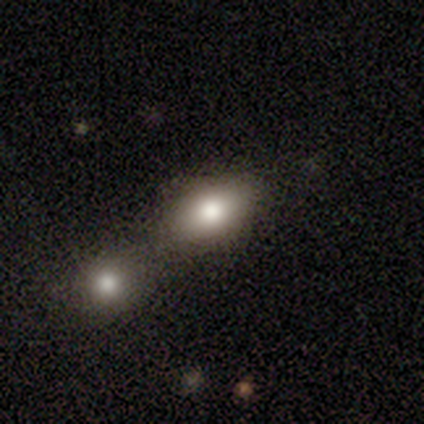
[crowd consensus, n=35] Smooth or featured?
  - smooth: 80% *
  - featured or disk: 17%
  - star or artifact: 3%
How rounded?
  - in between: 61% *
  - round: 36%
  - cigar-shaped: 4%
Merging?
  - merger: 59% *
  - none: 3%
  - minor disturbance: 3%
  - major disturbance: 0%